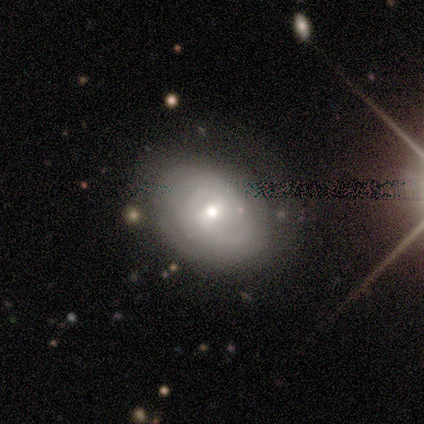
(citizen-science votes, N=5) smooth_or_featured: featured or disk (p=0.80) [alt: smooth p=0.20]
disk_edge_on: no (p=1.00)
bar: weak (p=0.50) [tied with: no p=0.50]
has_spiral_arms: yes (p=0.75) [alt: no p=0.25]
spiral_winding: tight (p=0.67) [alt: medium p=0.33]
spiral_arm_count: can't tell (p=0.67) [alt: 2 p=0.33]
bulge_size: moderate (p=0.50) [tied with: small p=0.50]
merging: none (p=0.80) [alt: merger p=0.20]